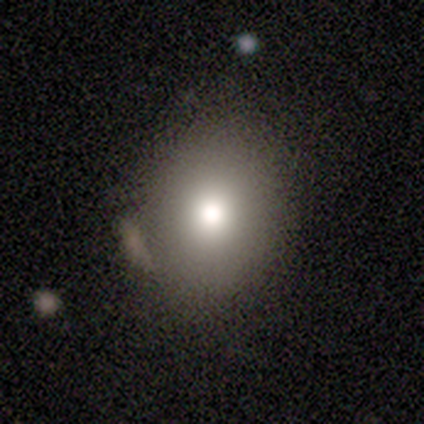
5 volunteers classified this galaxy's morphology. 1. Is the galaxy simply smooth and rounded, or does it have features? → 60% smooth, 40% featured or disk, 0% star or artifact.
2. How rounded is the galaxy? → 67% in between, 33% round, 0% cigar-shaped.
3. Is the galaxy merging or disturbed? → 80% none, 20% major disturbance, 0% minor disturbance, 0% merger.